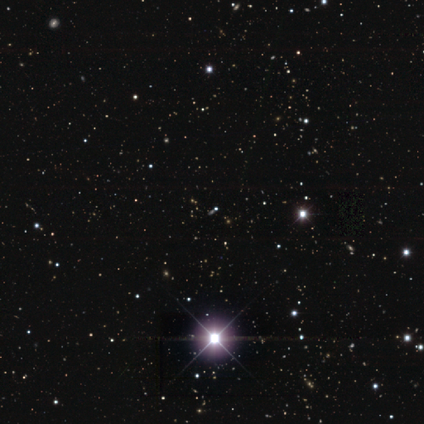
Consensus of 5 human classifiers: A star or artifact, not a galaxy (100%).